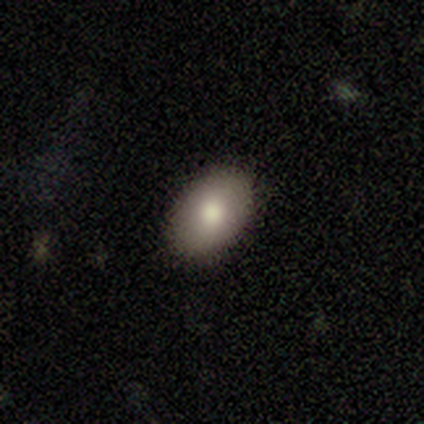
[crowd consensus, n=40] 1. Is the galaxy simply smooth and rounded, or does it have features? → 80% smooth, 12% featured or disk, 8% star or artifact.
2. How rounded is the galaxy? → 88% in between, 12% round, 0% cigar-shaped.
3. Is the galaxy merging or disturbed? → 89% none, 11% minor disturbance, 0% major disturbance, 0% merger.